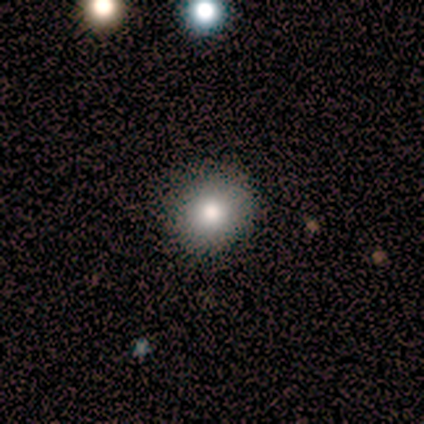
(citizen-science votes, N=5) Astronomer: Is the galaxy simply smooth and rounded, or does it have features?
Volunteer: smooth — 100%.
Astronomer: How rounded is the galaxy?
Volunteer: round — 100%.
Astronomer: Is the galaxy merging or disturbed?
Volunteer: none — 100%.